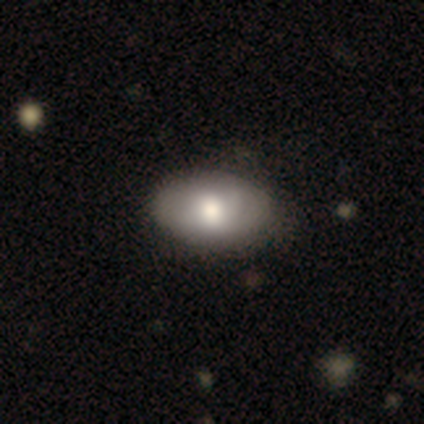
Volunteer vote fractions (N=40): This appears to be a smooth galaxy with no disk features (72%) that is in between round and cigar-shaped (100%). Merging: none (61%).